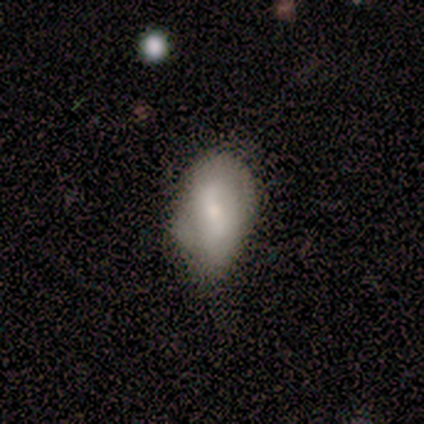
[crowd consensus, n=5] Q: Smooth or featured?
A: smooth (60%); runner-up: featured or disk (20%)
Q: How rounded?
A: in between (67%); runner-up: round (33%)
Q: Merging?
A: none (75%); runner-up: minor disturbance (25%)